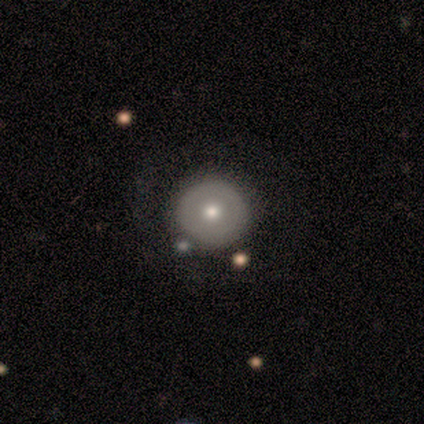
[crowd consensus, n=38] smooth_or_featured: smooth (p=0.63) [alt: featured or disk p=0.34]
how_rounded: round (p=1.00)
merging: none (p=0.59) [alt: merger p=0.08]